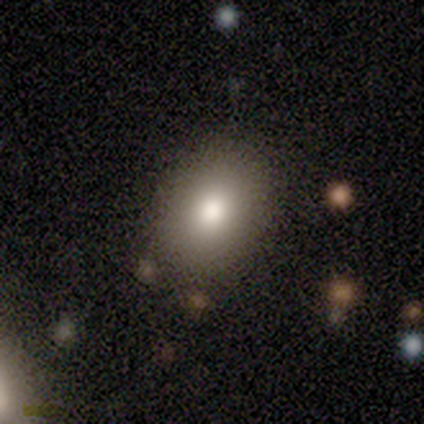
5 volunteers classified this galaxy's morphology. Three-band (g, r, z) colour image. It shows a smooth galaxy with no disk features (100%) that is in between round and cigar-shaped (100%). Merging: none (80%).